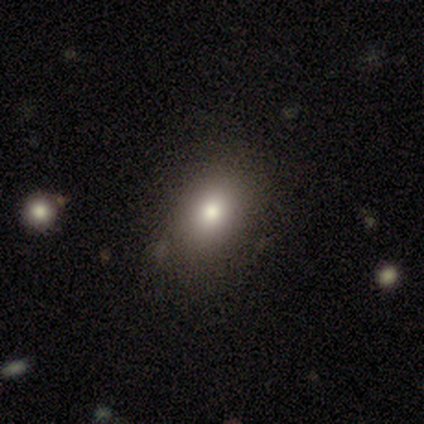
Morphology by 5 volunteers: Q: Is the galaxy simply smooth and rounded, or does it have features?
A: smooth — 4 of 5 (80%).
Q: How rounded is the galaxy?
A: in between — 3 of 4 (75%).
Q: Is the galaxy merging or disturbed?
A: none — 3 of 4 (75%).